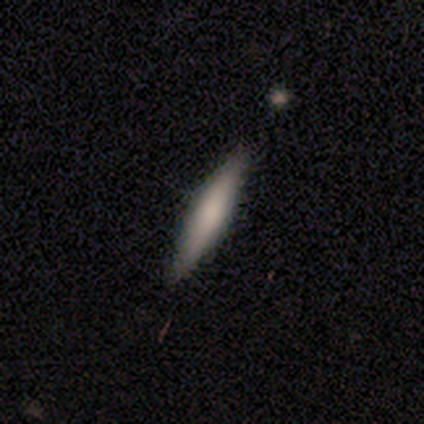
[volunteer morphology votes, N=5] A smooth galaxy with no disk features (60%) that is cigar-shaped (100%).

Vote fractions:
- Smooth or featured? smooth: 60% / featured or disk: 40% / star or artifact: 0%
- How rounded? cigar-shaped: 100% / round: 0% / in between: 0%
- Merging? none: 100% / minor disturbance: 0% / major disturbance: 0% / merger: 0%